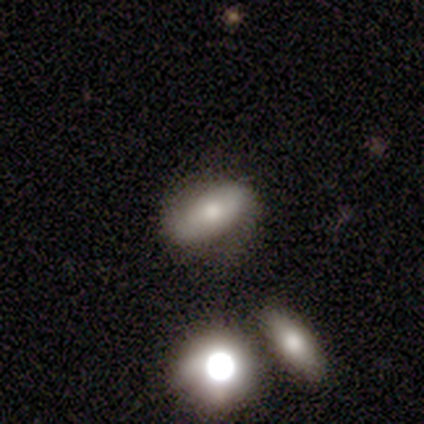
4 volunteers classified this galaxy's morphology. A smooth galaxy with no disk features (75%) that is in between round and cigar-shaped (100%). Merging: none (50%).